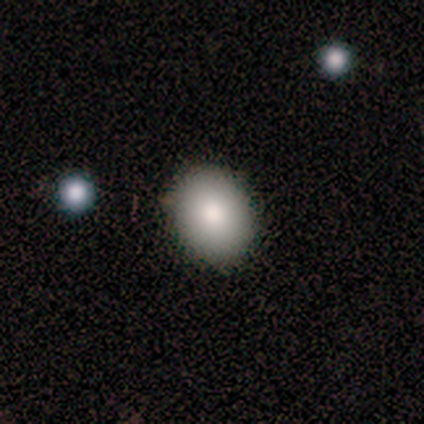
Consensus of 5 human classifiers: This appears to be a smooth galaxy with no disk features (80%) that is round (50%, tied with in between). Merging: none (100%).